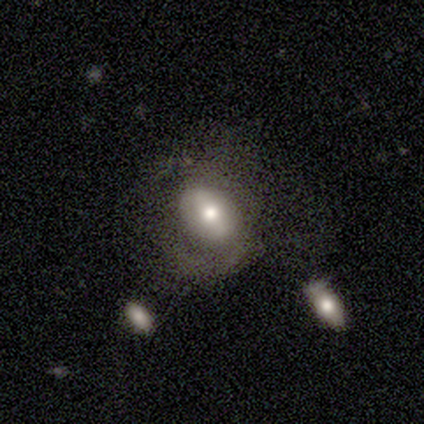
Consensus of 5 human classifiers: smooth_or_featured: featured or disk (p=0.60) [alt: smooth p=0.40]
disk_edge_on: no (p=1.00)
bar: strong (p=0.33) [tied with: weak p=0.33, no p=0.33]
has_spiral_arms: no (p=1.00)
bulge_size: moderate (p=1.00)
merging: none (p=0.60) [alt: major disturbance p=0.40]